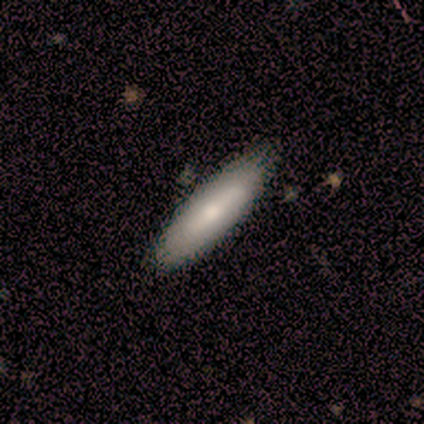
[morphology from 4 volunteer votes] smooth 100%, featured or disk 0%, star or artifact 0%. Down the decision tree: how rounded — in between (75%); merging — none (100%).